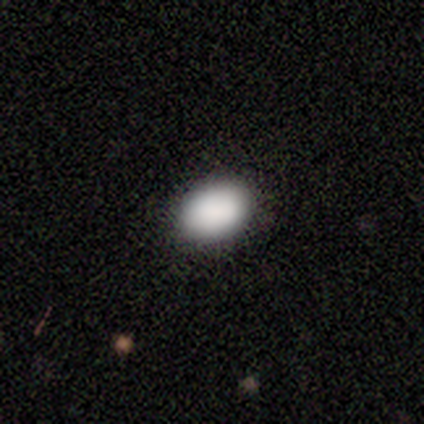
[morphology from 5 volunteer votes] Smooth or featured?
  - smooth: 80% *
  - star or artifact: 20%
  - featured or disk: 0%
How rounded?
  - in between: 100% *
  - round: 0%
  - cigar-shaped: 0%
Merging?
  - none: 75% *
  - minor disturbance: 25%
  - major disturbance: 0%
  - merger: 0%